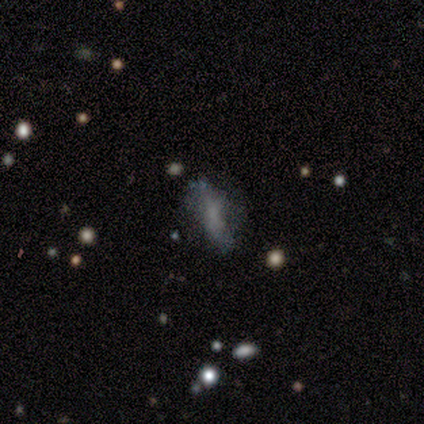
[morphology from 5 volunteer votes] A smooth galaxy with no disk features (80%) that is in between round and cigar-shaped (75%). Merging: none (60%).